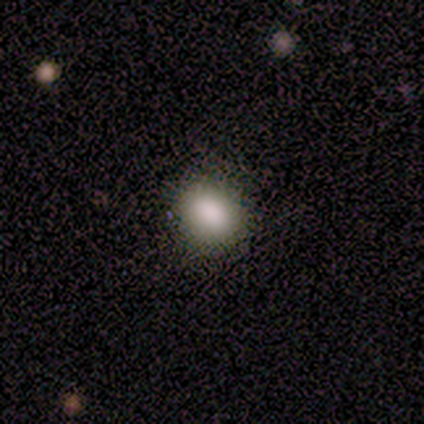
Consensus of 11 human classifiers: Volunteers were most divided on "how rounded": round: 73%, in between: 27%, cigar-shaped: 0%. More confident: smooth or featured — smooth (100%); merging — none (91%).